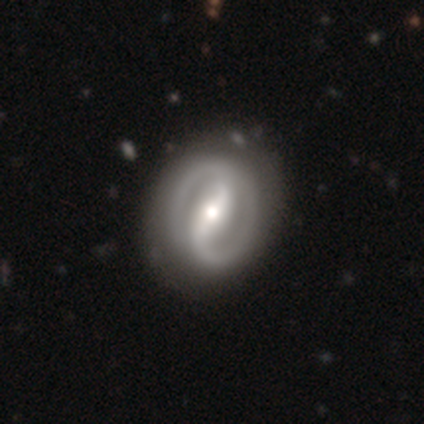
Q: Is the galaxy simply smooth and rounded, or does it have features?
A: featured or disk — 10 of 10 (100%).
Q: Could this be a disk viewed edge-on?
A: no — 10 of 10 (100%).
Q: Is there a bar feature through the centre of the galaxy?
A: strong — 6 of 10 (60%).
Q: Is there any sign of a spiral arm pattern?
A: yes — 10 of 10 (100%).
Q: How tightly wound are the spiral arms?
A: tight — 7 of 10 (70%).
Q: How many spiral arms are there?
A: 2 — 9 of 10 (90%).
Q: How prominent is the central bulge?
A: moderate — 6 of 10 (60%).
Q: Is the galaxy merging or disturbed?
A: none — 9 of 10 (90%).